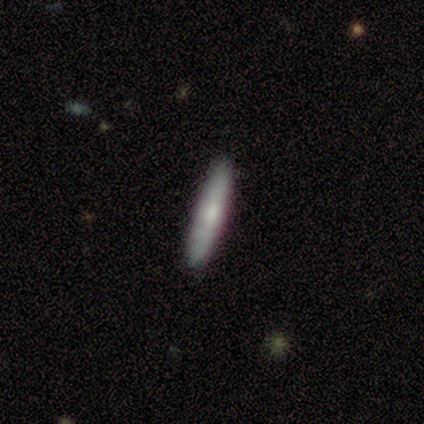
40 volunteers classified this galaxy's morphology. Smooth or featured? 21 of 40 (52%) said smooth. How rounded? 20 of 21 (95%) said cigar-shaped. Merging? 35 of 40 (88%) said none.